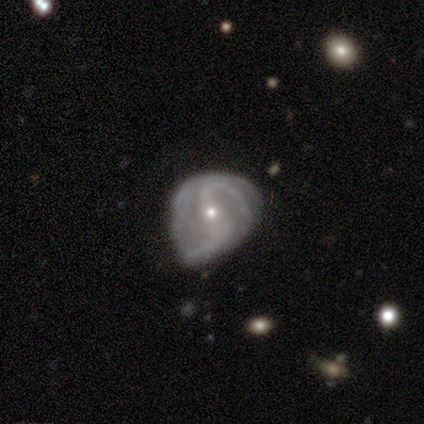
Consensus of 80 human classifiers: Volunteers were most divided on "bar": no: 37%, weak: 34%, strong: 29%. Remaining: edge-on disk — no (100%); spiral arms — yes (94%); smooth or featured — featured or disk (88%); bulge size — small (71%); spiral arm count — 2 (45%); spiral winding — medium (42%); merging — minor disturbance (25%).